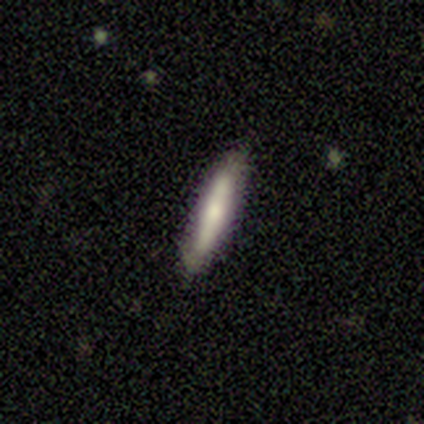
This appears to be a smooth galaxy with no disk features (100%) that is cigar-shaped (100%). Merging: none (80%).